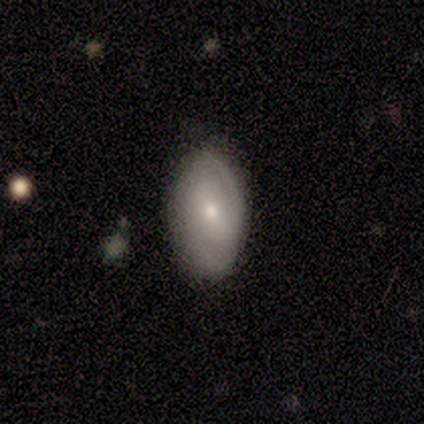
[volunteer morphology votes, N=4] Overall: featured or disk (75%). Edge-on disk: no (100%). Bar: no (67%; weak 33%). Spiral arms: yes (100%). Spiral arm count: 2 (67%; 1 33%). Spiral winding: tight (67%; medium 33%). Bulge size: small (67%; moderate 33%). Merging: none (75%).